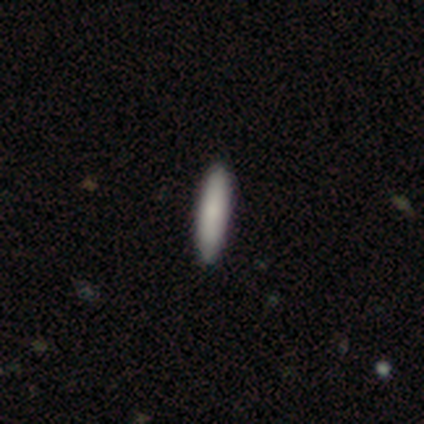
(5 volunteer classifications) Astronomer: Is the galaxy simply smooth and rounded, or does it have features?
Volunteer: smooth — 100%.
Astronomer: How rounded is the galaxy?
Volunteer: cigar-shaped — 80%.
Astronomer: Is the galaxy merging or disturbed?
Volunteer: none — 100%.